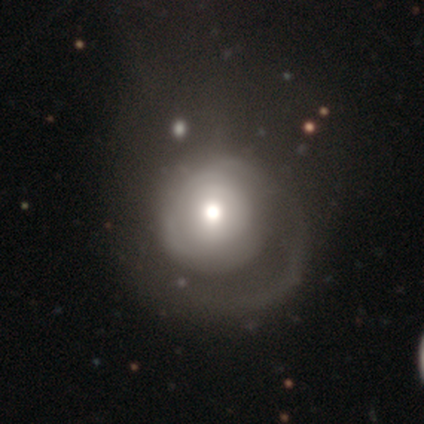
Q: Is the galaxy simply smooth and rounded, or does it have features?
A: featured or disk — 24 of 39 (62%).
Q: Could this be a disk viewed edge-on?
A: no — 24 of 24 (100%).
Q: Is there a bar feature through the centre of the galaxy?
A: no — 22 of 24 (92%).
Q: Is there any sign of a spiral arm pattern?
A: yes — 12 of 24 (50%, tied with no).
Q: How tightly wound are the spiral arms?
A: tight — 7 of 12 (58%).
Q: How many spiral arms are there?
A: can't tell — 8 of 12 (67%).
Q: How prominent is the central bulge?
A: moderate — 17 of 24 (71%).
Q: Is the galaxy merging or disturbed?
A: major disturbance — 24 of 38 (63%).